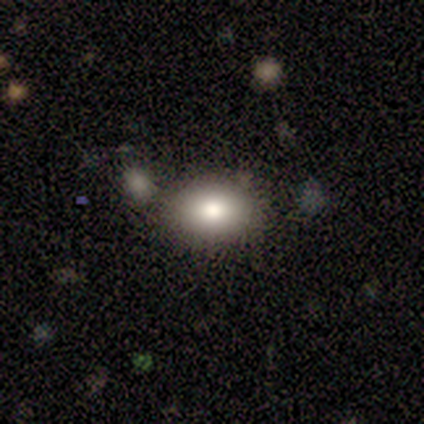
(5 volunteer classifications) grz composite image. It shows a smooth galaxy with no disk features (100%) that is in between round and cigar-shaped (60%). Merging: none (80%).